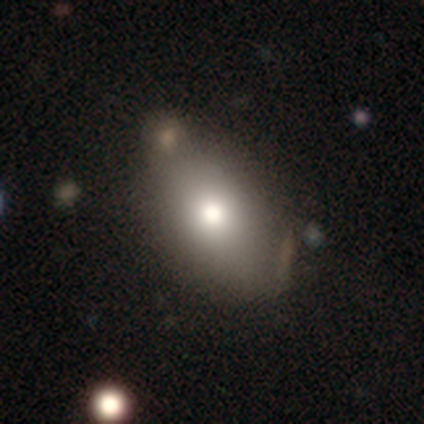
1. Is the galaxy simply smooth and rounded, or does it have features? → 71% smooth, 15% featured or disk, 14% star or artifact.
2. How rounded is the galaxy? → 92% in between, 6% round, 2% cigar-shaped.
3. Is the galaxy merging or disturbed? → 69% none, 19% minor disturbance, 9% merger, 3% major disturbance.